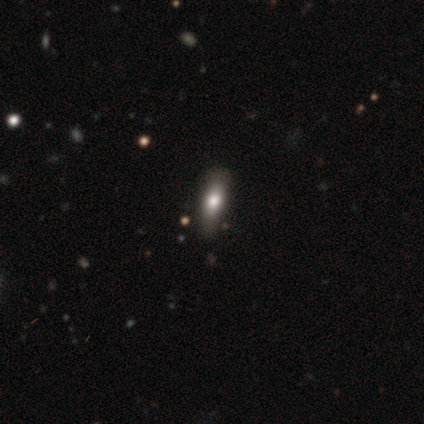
smooth 100%, featured or disk 0%, star or artifact 0%. Down the decision tree: how rounded — cigar-shaped (60%); merging — none (100%).